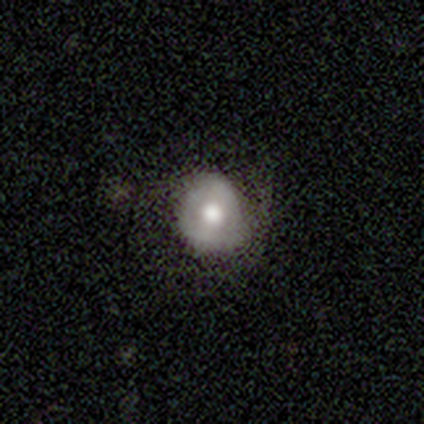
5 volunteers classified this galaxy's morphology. Smooth or featured?
  - smooth: 40% * (tied)
  - featured or disk: 40% * (tied)
  - star or artifact: 20%
How rounded?
  - round: 100% *
  - in between: 0%
  - cigar-shaped: 0%
Merging?
  - none: 100% *
  - minor disturbance: 0%
  - major disturbance: 0%
  - merger: 0%